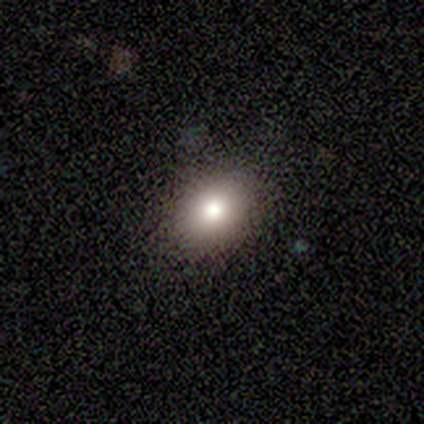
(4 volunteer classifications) Smooth or featured: smooth — 50% (featured or disk — 25%)
How rounded: in between — 100%
Merging: minor disturbance — 67% (none — 33%)